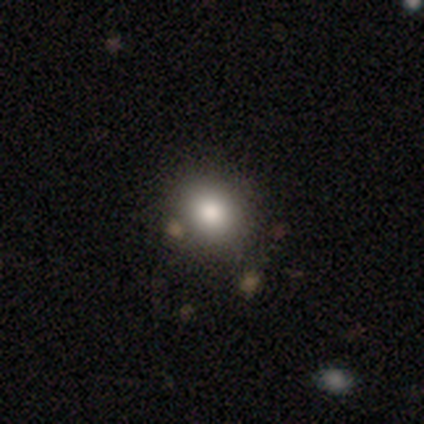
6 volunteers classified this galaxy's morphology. A smooth galaxy with no disk features (67%) that is round (75%).

Vote fractions:
- Smooth or featured? smooth: 67% / featured or disk: 17% / star or artifact: 17%
- How rounded? round: 75% / in between: 25% / cigar-shaped: 0%
- Merging? none: 100% / minor disturbance: 0% / major disturbance: 0% / merger: 0%